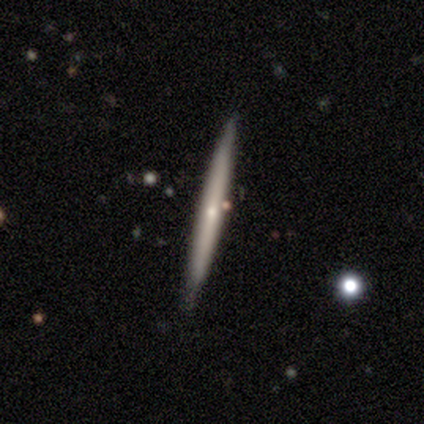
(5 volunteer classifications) Volunteers were most divided on "edge-on bulge": rounded: 75%, none: 25%, boxy: 0%. More confident: edge-on disk — yes (100%); smooth or featured — featured or disk (80%); merging — none (80%).